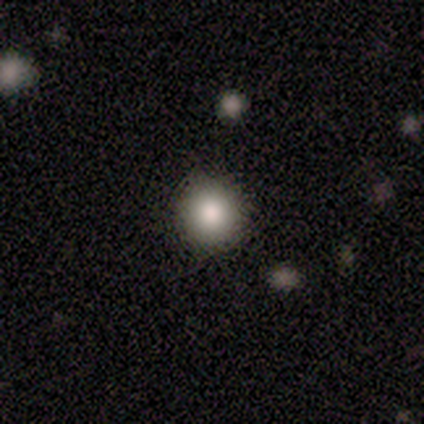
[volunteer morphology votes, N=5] Smooth or featured: smooth — 80% (featured or disk — 20%)
How rounded: round — 100%
Merging: none — 100%